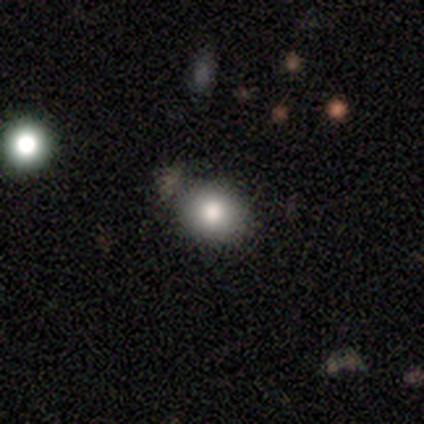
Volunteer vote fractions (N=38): Smooth or featured? smooth (74%)
How rounded? in between (64%)
Merging? none (85%)